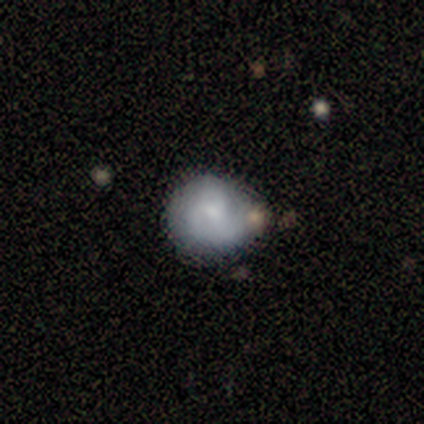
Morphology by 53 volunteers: A smooth galaxy with no disk features (47%) that is round (72%).

Vote fractions:
- Smooth or featured? smooth: 47% / featured or disk: 43% / star or artifact: 9%
- How rounded? round: 72% / in between: 20% / cigar-shaped: 8%
- Merging? none: 52% / minor disturbance: 35% / major disturbance: 6% / merger: 6%